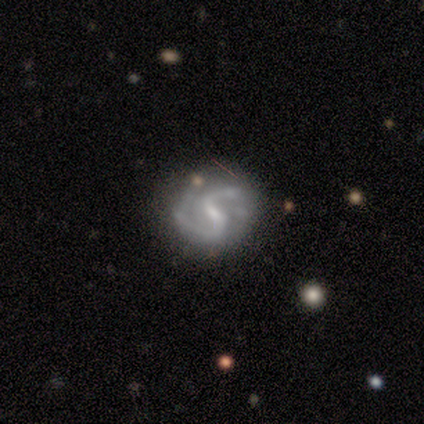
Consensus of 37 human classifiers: Volunteers were most divided on "spiral winding" (2-way tie): medium: 48%, loose: 48%, tight: 3%. More confident: edge-on disk — no (100%); spiral arms — yes (100%); spiral arm count — 2 (97%); smooth or featured — featured or disk (89%); bar — weak (70%); merging — none (68%); bulge size — small (58%).